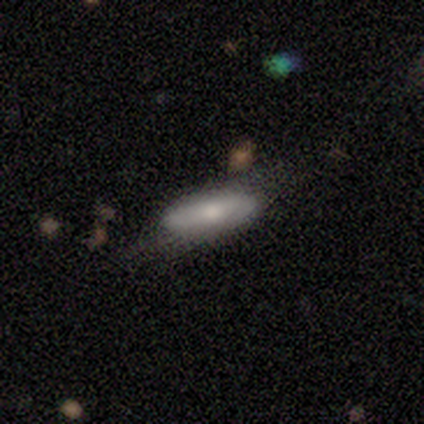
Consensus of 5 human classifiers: This appears to be a smooth galaxy with no disk features (80%) that is in between round and cigar-shaped (75%). Merging: none (60%).